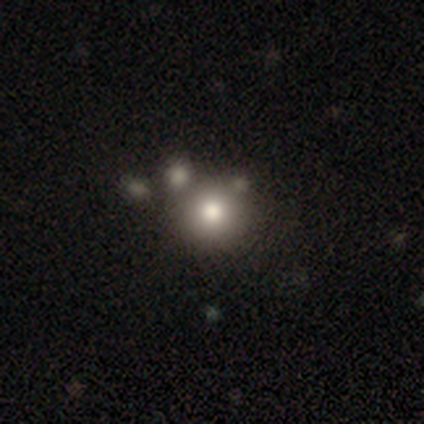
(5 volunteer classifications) A smooth galaxy with no disk features (40%, tied with featured or disk) that is round (100%).

Vote fractions:
- Smooth or featured? smooth: 40% (tied) / featured or disk: 40% (tied) / star or artifact: 20%
- How rounded? round: 100% / in between: 0% / cigar-shaped: 0%
- Merging? none: 75% / merger: 25% / minor disturbance: 0% / major disturbance: 0%